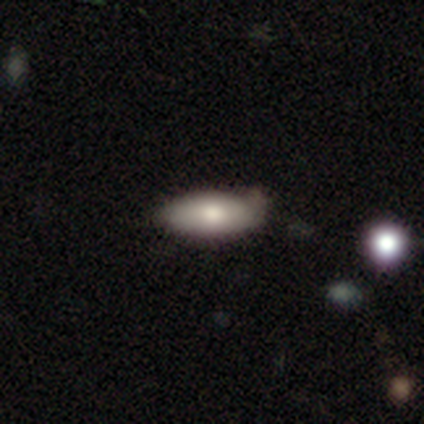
smooth 60%, featured or disk 20%, star or artifact 20%. Down the decision tree: how rounded — in between (100%); merging — none (75%).